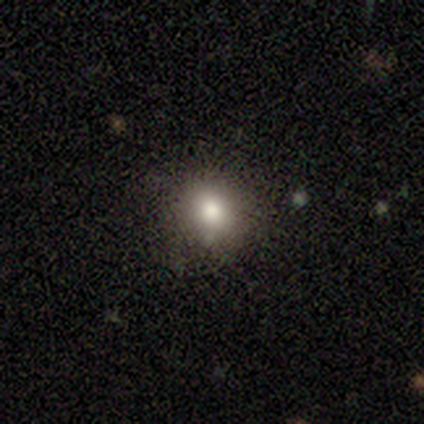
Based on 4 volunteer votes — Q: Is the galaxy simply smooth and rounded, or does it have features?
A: smooth — 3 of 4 (75%).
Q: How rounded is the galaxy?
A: round — 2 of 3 (67%).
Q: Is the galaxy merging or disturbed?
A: none — 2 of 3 (67%).